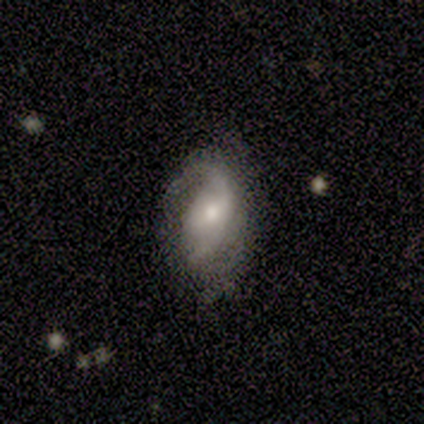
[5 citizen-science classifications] This is likely a featured or disk galaxy (60%). It is clearly not viewed edge-on (100%). Bar: likely no (67%). Spiral arm pattern: clearly yes (100%). Spiral arm count: marginally 1 (33%, tied with 2 and can't tell). Spiral winding: likely medium (67%). Central bulge: likely small (67%). Merging: likely none (75%).